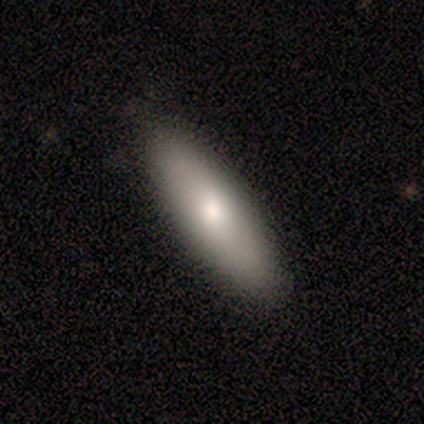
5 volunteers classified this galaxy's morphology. Smooth or featured: smooth — 80% (featured or disk — 20%)
How rounded: in between — 50% (tied with cigar-shaped — 50%)
Merging: none — 100%